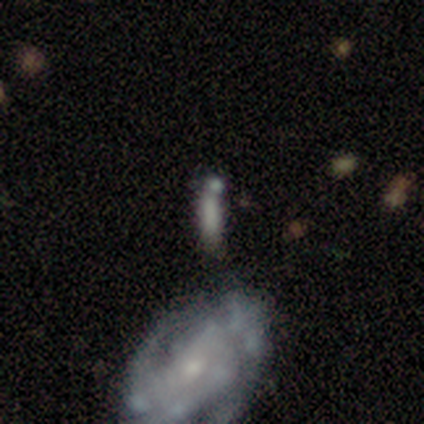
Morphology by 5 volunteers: Smooth or featured? smooth (60%)
How rounded? cigar-shaped (100%)
Merging? none (50%)